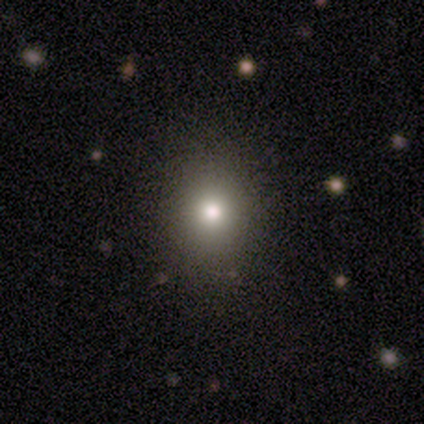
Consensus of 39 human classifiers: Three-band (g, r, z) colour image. It shows a smooth galaxy with no disk features (82%) that is round (66%). Merging: none (91%).